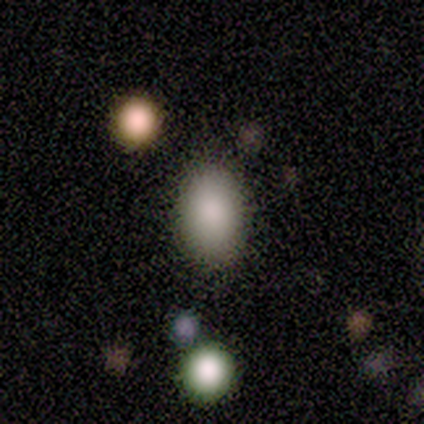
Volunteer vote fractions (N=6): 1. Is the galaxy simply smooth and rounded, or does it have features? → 83% smooth, 17% featured or disk, 0% star or artifact.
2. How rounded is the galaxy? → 80% in between, 20% round, 0% cigar-shaped.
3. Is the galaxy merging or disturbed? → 83% none, 17% merger, 0% minor disturbance, 0% major disturbance.